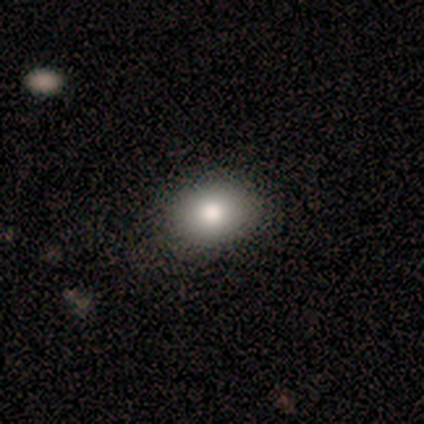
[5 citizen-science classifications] A smooth galaxy with no disk features (60%) that is round (67%).

Vote fractions:
- Smooth or featured? smooth: 60% / featured or disk: 40% / star or artifact: 0%
- How rounded? round: 67% / in between: 33% / cigar-shaped: 0%
- Merging? none: 100% / minor disturbance: 0% / major disturbance: 0% / merger: 0%